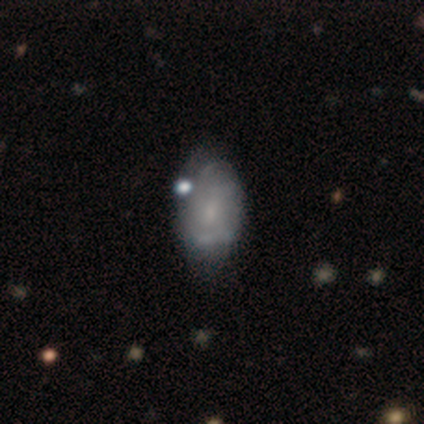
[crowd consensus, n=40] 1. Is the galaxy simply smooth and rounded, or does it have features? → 62% featured or disk, 28% smooth, 10% star or artifact.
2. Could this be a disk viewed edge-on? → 100% no, 0% yes.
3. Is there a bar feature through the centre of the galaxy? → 60% no, 40% weak, 0% strong.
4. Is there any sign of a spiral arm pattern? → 84% yes, 16% no.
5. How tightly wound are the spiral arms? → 33% tight (tied), 33% medium (tied), 33% loose (tied).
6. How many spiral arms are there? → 76% can't tell, 10% 4, 5% 2, 5% 3, 5% more than 4, 0% 1.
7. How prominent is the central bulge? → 56% small, 24% none, 16% moderate, 4% large, 0% dominant.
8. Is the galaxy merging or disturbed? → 50% none, 22% minor disturbance, 8% major disturbance, 8% merger.